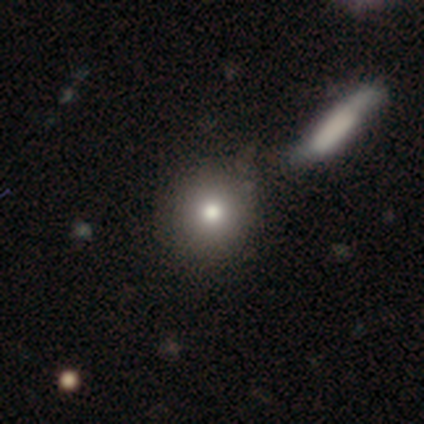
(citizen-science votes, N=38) Smooth or featured? smooth (79%)
How rounded? round (87%)
Merging? none (70%)